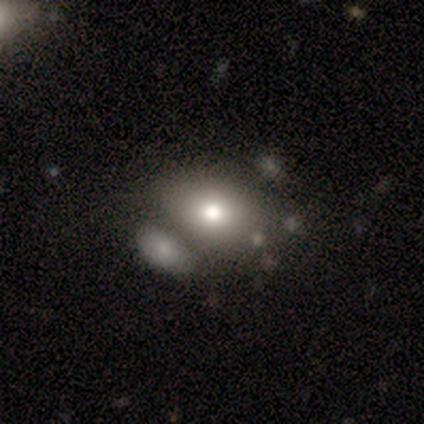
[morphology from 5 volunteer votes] type=smooth (60%); roundness=in between (67%); merging=none (60%).